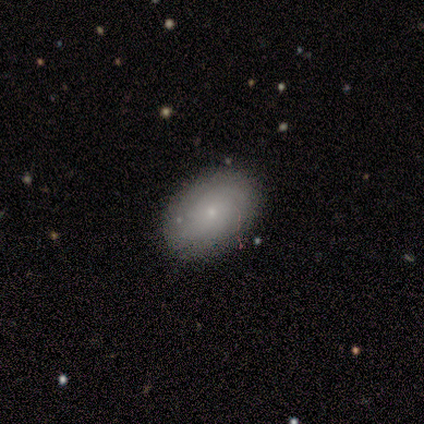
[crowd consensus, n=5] Volunteers were most divided on "bar": no: 67%, weak: 33%, strong: 0%. More confident: edge-on disk — no (100%); spiral arms — yes (100%); spiral winding — tight (100%); bulge size — small (100%); merging — none (75%); spiral arm count — can't tell (67%); smooth or featured — featured or disk (60%).